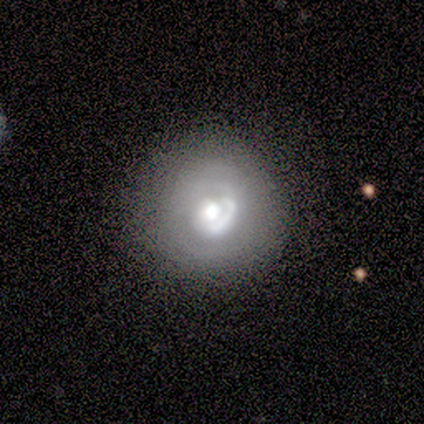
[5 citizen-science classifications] Morphology: type=featured or disk (80%); edge-on=no (100%); bar=no (100%); spiral arms=no (75%); bulge=large (50%); merging=none (75%).